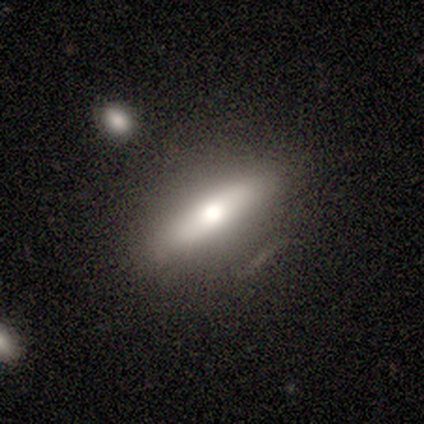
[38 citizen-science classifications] smooth-or-featured: smooth: 63% | featured or disk: 34% | star or artifact: 3%
  how-rounded: cigar-shaped: 62% | in between: 38% | round: 0%
  merging: none: 73% | minor disturbance: 19% | major disturbance: 8% | merger: 0%